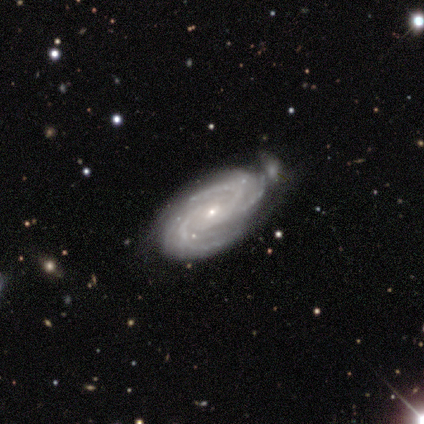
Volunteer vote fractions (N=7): featured or disk 100%, smooth 0%, star or artifact 0%. Down the decision tree: edge-on disk — no (100%); bar — no (100%); spiral arms — yes (100%); spiral arm count — 3 (57%); spiral winding — medium (57%); bulge size — small (100%); merging — minor disturbance (57%).